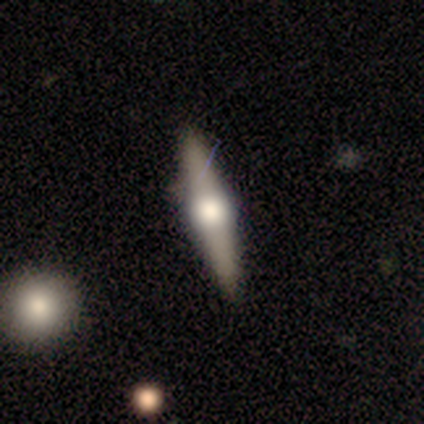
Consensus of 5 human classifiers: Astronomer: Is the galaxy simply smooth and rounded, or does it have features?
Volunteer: smooth — 60% (runner-up: featured or disk, 40%).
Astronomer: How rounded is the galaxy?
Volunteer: cigar-shaped — 67%.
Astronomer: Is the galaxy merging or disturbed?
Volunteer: none — 80%.